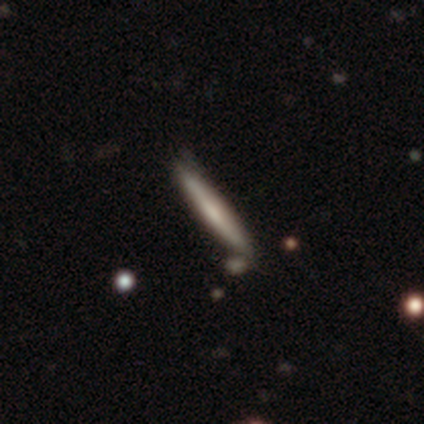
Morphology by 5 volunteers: Smooth or featured: smooth — 60% (featured or disk — 40%)
How rounded: cigar-shaped — 100%
Merging: none — 100%